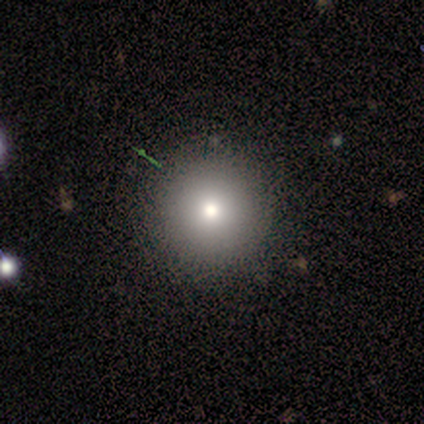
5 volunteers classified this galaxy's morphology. smooth 60%, featured or disk 20%, star or artifact 20%. Down the decision tree: how rounded — round (100%); merging — none (100%).